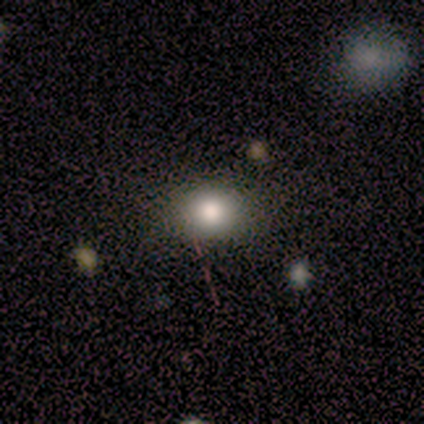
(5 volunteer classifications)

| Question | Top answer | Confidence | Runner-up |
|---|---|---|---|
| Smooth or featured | smooth | 100% | — |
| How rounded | in between | 80% | round (20%) |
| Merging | none | 80% | minor disturbance (20%) |